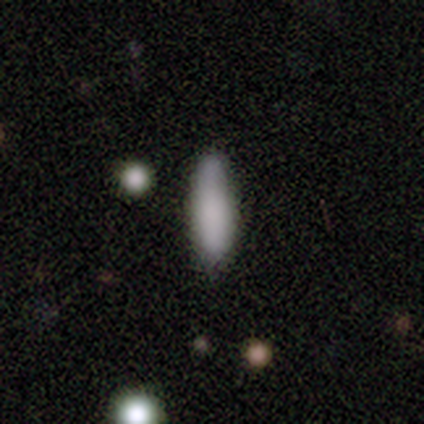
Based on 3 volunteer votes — This is likely a smooth galaxy (67%). How rounded: clearly in between (100%). Merging: clearly none (100%).